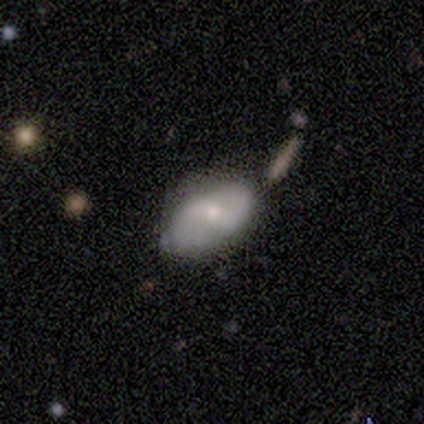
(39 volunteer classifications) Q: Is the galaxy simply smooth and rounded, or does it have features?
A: smooth — 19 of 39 (49%, tied with featured or disk).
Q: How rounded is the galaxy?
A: in between — 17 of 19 (89%).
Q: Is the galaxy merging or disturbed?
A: none — 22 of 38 (58%).